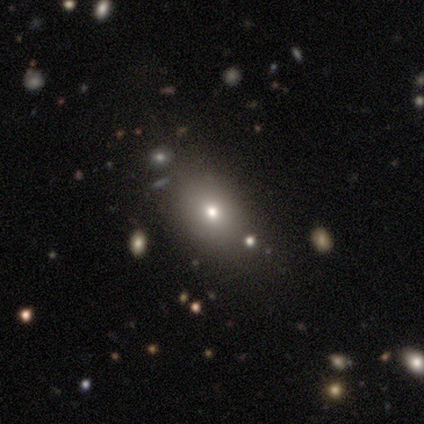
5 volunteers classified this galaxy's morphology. Smooth or featured: smooth — 80% (featured or disk — 20%)
How rounded: in between — 75% (round — 25%)
Merging: none — 80% (minor disturbance — 20%)